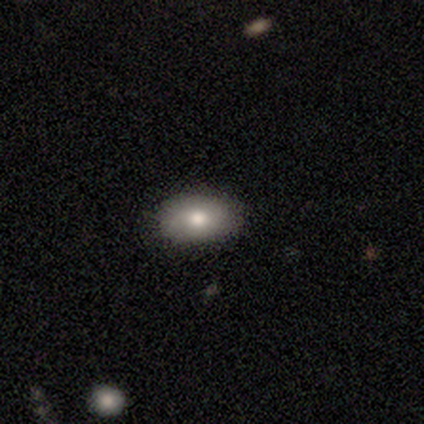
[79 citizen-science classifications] Volunteers were most divided on "merging": none: 57%, minor disturbance: 7%, merger: 3%, major disturbance: 0%. More confident: how rounded — in between (87%); smooth or featured — smooth (76%).